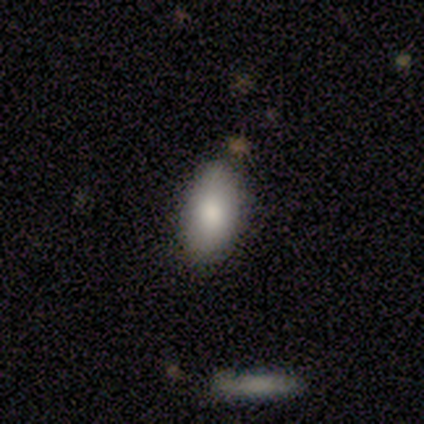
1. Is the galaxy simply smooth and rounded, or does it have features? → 40% smooth (tied), 40% star or artifact (tied), 20% featured or disk.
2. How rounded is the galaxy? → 100% in between, 0% round, 0% cigar-shaped.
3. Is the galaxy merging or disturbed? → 100% none, 0% minor disturbance, 0% major disturbance, 0% merger.